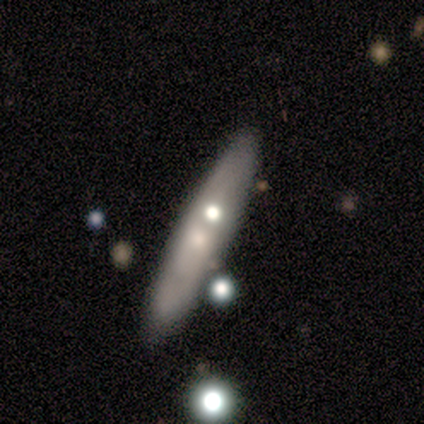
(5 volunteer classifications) smooth_or_featured: smooth (p=0.60) [alt: featured or disk p=0.40]
how_rounded: cigar-shaped (p=0.67) [alt: in between p=0.33]
merging: none (p=0.40) [tied with: minor disturbance p=0.40]